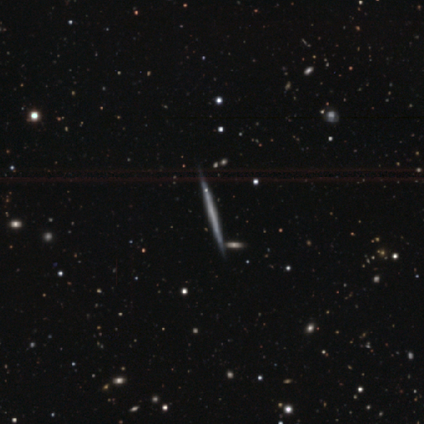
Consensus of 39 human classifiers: smooth-or-featured: featured or disk: 72% | smooth: 21% | star or artifact: 8%
  disk-edge-on: yes: 100% | no: 0%
    edge-on-bulge: none: 96% | rounded: 4% | boxy: 0%
  merging: none: 64% | minor disturbance: 3% | merger: 3% | major disturbance: 0%